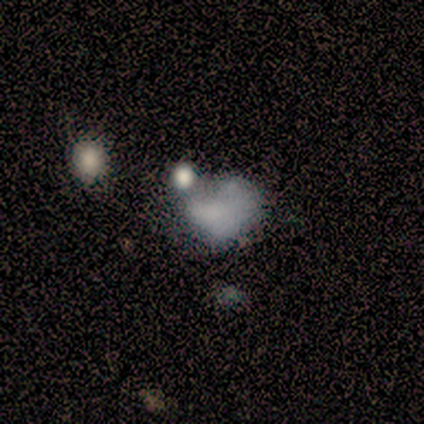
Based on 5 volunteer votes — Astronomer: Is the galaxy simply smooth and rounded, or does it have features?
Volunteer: featured or disk — 60% (runner-up: smooth, 40%).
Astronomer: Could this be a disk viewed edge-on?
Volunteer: no — 100%.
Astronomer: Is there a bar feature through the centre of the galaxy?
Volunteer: no — 100%.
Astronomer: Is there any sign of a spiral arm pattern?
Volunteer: no — 100%.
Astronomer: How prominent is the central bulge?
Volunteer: none — 100%.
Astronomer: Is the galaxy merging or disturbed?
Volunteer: none — 40%, tied with major disturbance at 40%.